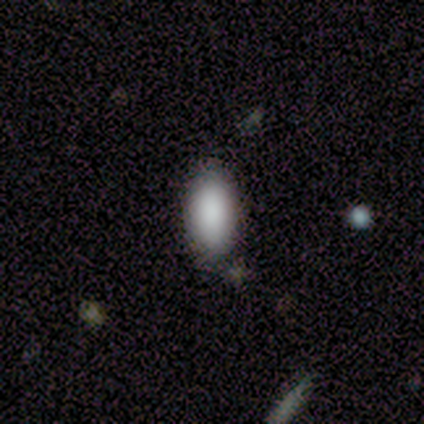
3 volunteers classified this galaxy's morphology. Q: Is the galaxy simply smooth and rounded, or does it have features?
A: smooth — 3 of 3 (100%).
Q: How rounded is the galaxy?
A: in between — 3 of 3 (100%).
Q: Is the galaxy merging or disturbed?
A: none — 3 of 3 (100%).